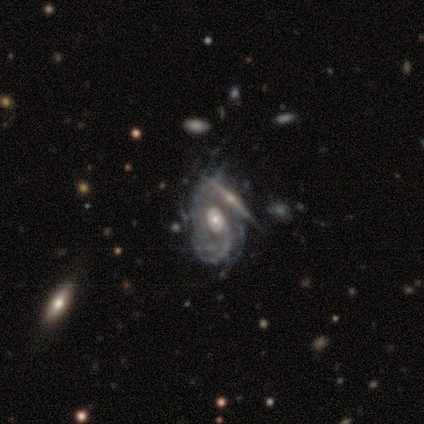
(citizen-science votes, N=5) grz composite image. It shows a featured or disk galaxy (80%) with no bar (75%), tight (33%, tied with medium and loose) spiral arms (75%) and a moderate central bulge (75%). Merging: none (50%).